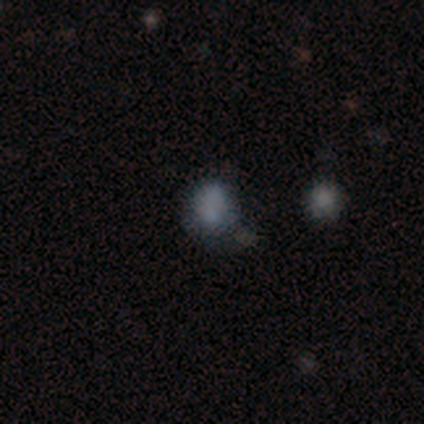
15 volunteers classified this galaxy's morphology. Volunteers were most divided on "merging": none: 50%, minor disturbance: 21%, merger: 21%, major disturbance: 7%. More confident: smooth or featured — smooth (87%); how rounded — round (77%).